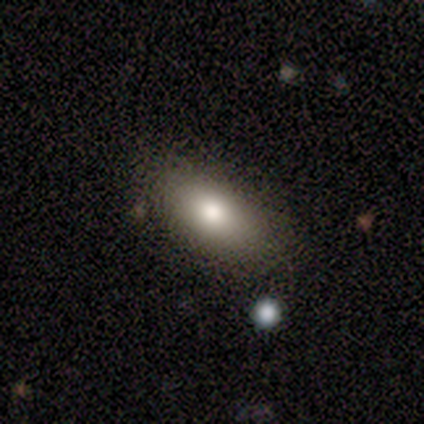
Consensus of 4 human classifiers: Smooth or featured: smooth — 75% (featured or disk — 25%)
How rounded: in between — 100%
Merging: none — 100%